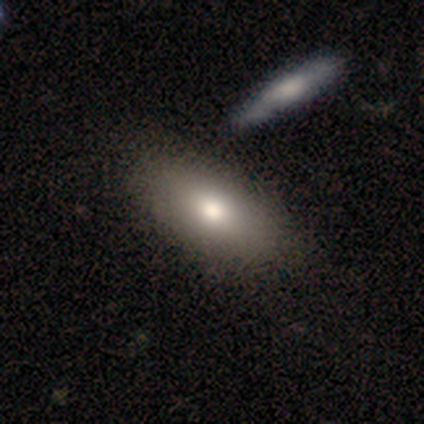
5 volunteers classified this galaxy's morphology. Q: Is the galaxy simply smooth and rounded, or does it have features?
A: featured or disk — 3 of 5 (60%).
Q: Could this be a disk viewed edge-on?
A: no — 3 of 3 (100%).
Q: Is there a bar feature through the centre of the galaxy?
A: no — 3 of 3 (100%).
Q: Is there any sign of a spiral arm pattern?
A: no — 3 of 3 (100%).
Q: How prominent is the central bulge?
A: moderate — 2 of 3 (67%).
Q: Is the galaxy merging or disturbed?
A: none — 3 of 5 (60%).